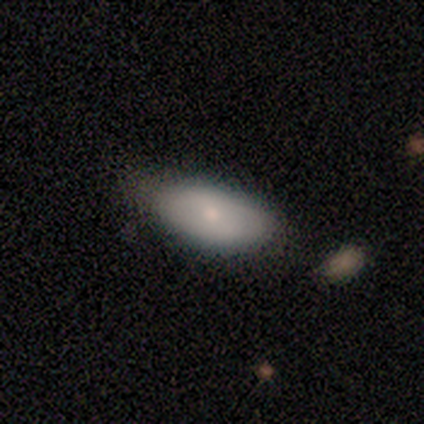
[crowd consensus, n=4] This is possibly a star or artifact rather than a galaxy (50%).